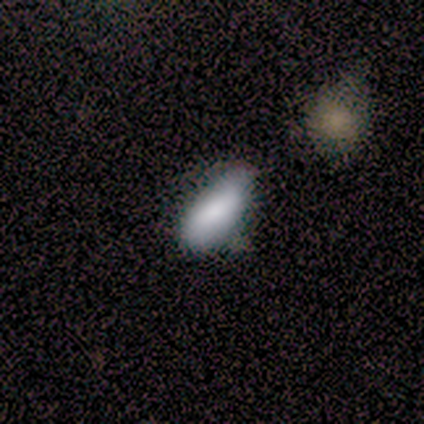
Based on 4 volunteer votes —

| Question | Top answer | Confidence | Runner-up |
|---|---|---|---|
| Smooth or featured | smooth | 100% | — |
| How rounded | in between | 50% | tied: cigar-shaped (50%) |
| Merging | none | 50% | tied: minor disturbance (50%) |